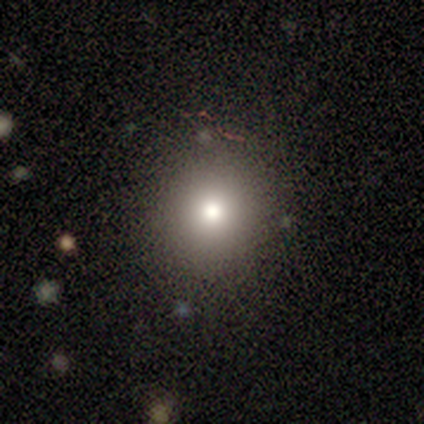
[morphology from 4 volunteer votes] This appears to be a smooth galaxy with no disk features (75%) that is round (100%). Merging: none (100%).